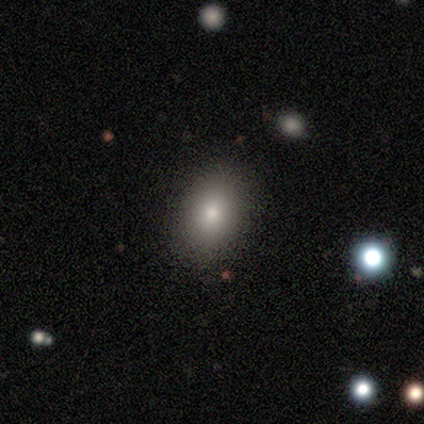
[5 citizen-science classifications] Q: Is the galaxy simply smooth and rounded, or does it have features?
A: smooth — 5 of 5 (100%).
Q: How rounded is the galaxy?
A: in between — 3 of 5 (60%).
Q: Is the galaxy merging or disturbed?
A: none — 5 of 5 (100%).